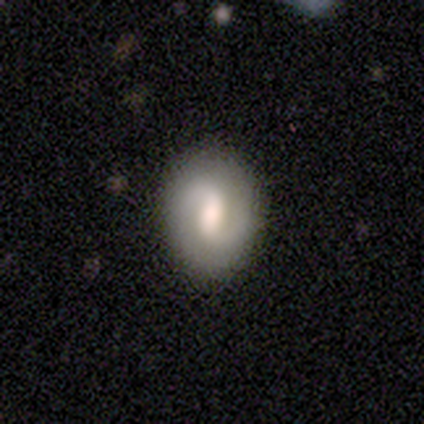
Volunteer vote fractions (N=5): Overall: featured or disk (80%). Edge-on disk: no (100%). Bar: weak (50%; strong 25%). Spiral arms: yes (100%). Spiral arm count: 2 (50%, tied with can't tell). Spiral winding: medium (50%; tight 25%). Bulge size: large (50%; moderate 25%). Merging: none (100%).